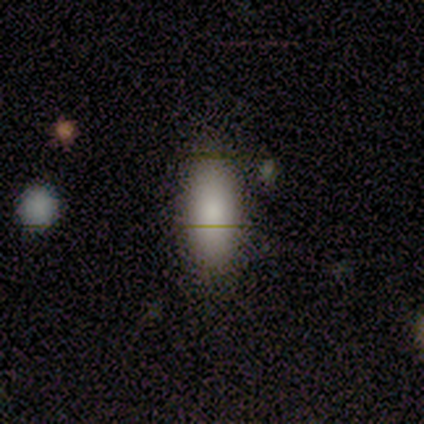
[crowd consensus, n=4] This appears to be a smooth galaxy with no disk features (100%) that is in between round and cigar-shaped (100%). Merging: none (50%, tied with minor disturbance).